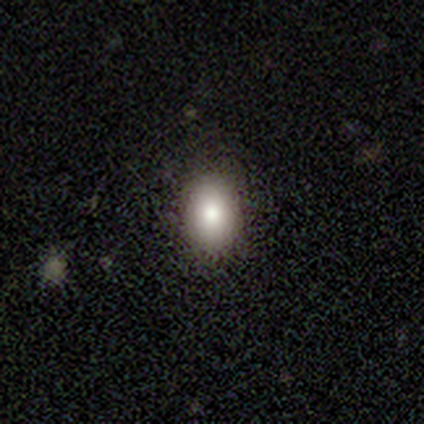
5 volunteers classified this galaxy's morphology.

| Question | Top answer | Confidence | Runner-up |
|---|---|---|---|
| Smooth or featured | smooth | 100% | — |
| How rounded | in between | 100% | — |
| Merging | none | 100% | — |